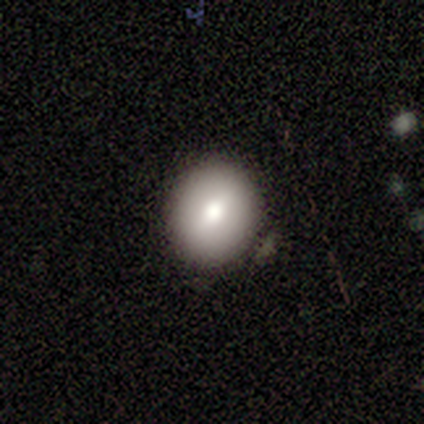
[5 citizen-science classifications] A smooth galaxy with no disk features (80%) that is round (100%). Merging: none (100%).